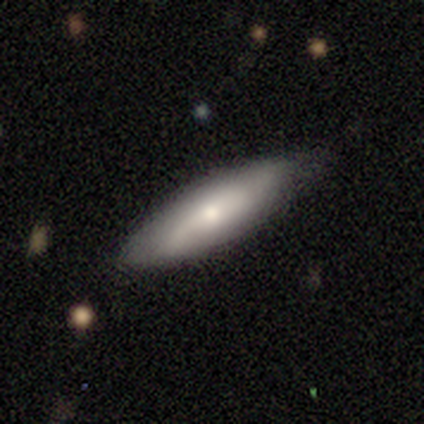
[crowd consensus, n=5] smooth-or-featured: smooth: 80% | featured or disk: 20% | star or artifact: 0%
  how-rounded: in between: 75% | cigar-shaped: 25% | round: 0%
  merging: none: 80% | minor disturbance: 20% | major disturbance: 0% | merger: 0%